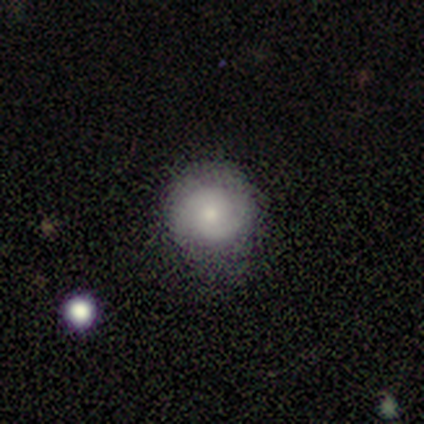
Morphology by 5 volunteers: smooth-or-featured: smooth: 40% (tied) | featured or disk: 40% (tied) | star or artifact: 20%
  how-rounded: round: 50% (tied) | in between: 50% (tied) | cigar-shaped: 0%
  merging: none: 75% | minor disturbance: 25% | major disturbance: 0% | merger: 0%